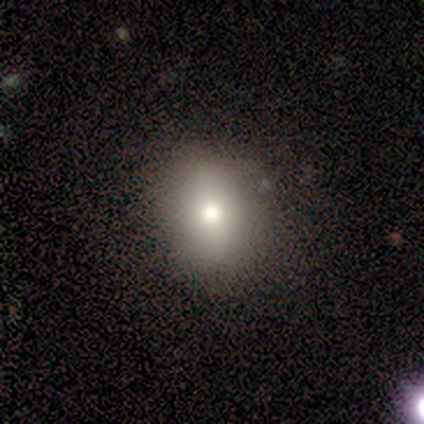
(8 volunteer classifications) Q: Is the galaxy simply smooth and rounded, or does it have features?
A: smooth — 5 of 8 (62%).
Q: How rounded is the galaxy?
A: in between — 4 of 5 (80%).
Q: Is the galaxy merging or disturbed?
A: none — 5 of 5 (100%).